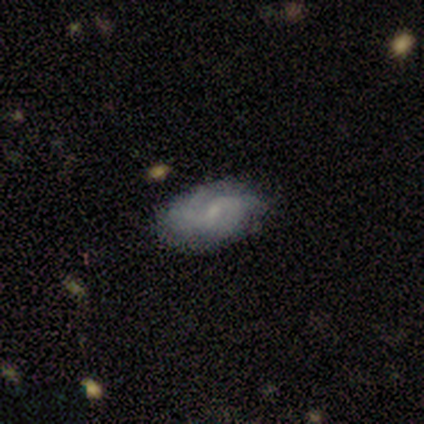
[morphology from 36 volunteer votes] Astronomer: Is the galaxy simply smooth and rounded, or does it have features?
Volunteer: featured or disk — 53% (runner-up: smooth, 39%).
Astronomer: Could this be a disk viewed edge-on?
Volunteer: no — 95%.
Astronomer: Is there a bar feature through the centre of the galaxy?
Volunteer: no — 56% (runner-up: weak, 44%).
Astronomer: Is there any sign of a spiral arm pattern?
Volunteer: yes — 83%.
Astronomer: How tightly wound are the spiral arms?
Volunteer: medium — 73%.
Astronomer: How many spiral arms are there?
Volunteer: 2 — 53% (runner-up: can't tell, 47%).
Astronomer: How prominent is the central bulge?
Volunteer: small — 61%.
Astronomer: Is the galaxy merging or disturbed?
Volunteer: none — 79%.